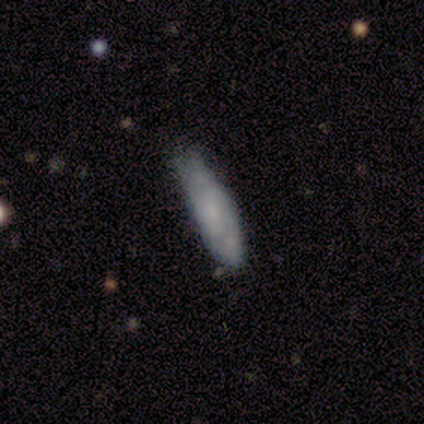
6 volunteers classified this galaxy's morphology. smooth 83%, featured or disk 17%, star or artifact 0%. Down the decision tree: how rounded — in between (80%); merging — minor disturbance (50%).